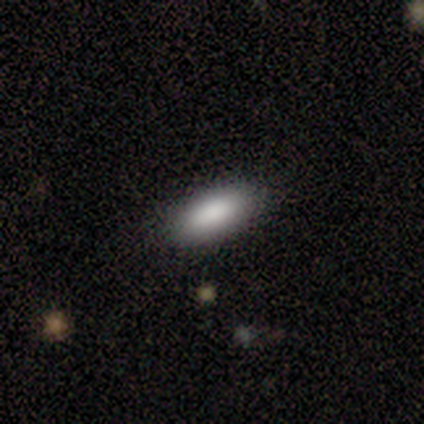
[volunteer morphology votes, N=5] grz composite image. It shows a smooth galaxy with no disk features (60%) that is in between round and cigar-shaped (100%). Merging: none (100%).